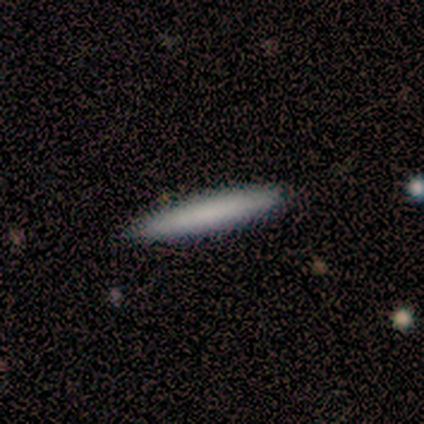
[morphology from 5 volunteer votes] This is clearly a smooth galaxy (100%). How rounded: clearly cigar-shaped (100%). Merging: clearly none (80%).